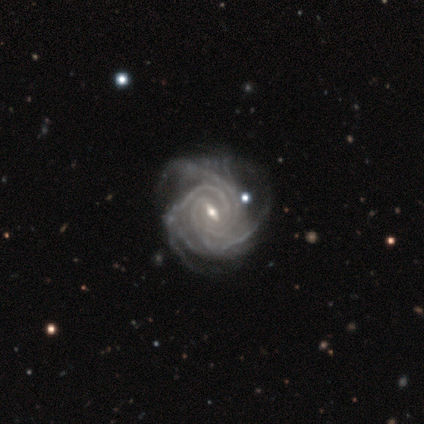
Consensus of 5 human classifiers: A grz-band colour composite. It shows a featured or disk galaxy (100%) with a weak bar (75%), 3 (25%, tied with 4, more than 4 and can't tell) tight (100%) spiral arms (100%) and a small central bulge (75%). Merging: minor disturbance (60%).